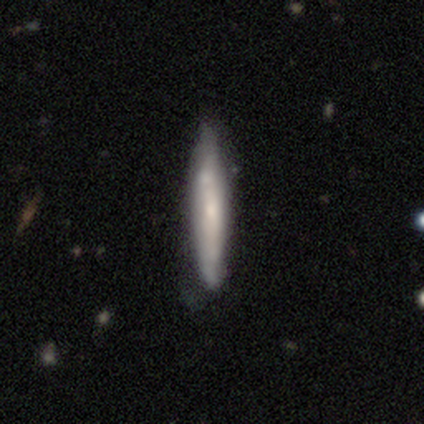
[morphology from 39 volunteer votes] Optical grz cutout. It shows a smooth galaxy with no disk features (54%) that is cigar-shaped (100%). Merging: none (49%).